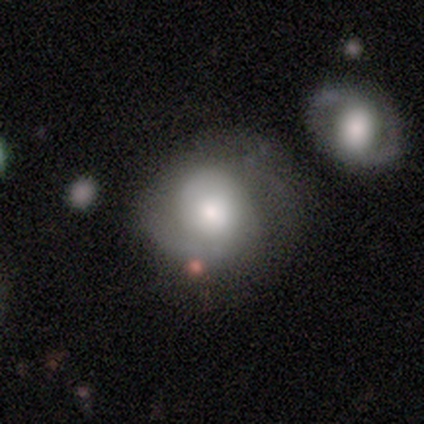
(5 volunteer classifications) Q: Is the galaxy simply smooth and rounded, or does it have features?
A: smooth — 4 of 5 (80%).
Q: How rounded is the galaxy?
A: round — 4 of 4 (100%).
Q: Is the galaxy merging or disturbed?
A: none — 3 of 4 (75%).